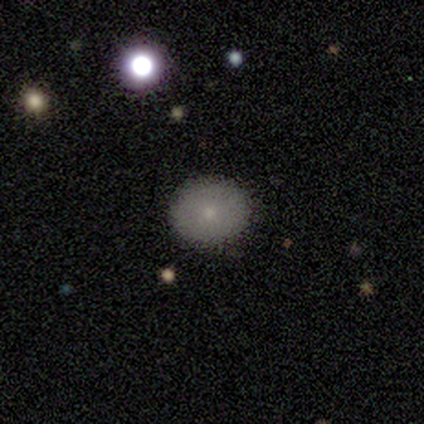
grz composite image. It shows a smooth galaxy with no disk features (80%) that is round (100%). Merging: none (100%).